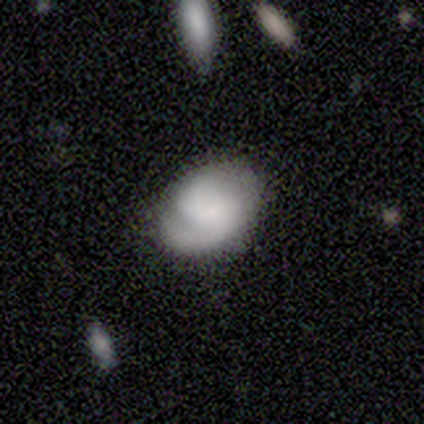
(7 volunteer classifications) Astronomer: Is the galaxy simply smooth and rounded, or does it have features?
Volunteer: featured or disk — 71%.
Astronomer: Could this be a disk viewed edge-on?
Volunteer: no — 100%.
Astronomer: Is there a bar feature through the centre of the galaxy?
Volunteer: no — 80%.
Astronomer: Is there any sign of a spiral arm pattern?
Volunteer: yes — 80%.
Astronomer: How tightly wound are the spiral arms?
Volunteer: tight — 50%, tied with medium at 50%.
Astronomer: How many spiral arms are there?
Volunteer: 2 — 75%.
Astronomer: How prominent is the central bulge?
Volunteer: moderate — 40%, tied with none at 40%.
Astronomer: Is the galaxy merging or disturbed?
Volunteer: none — 71%.